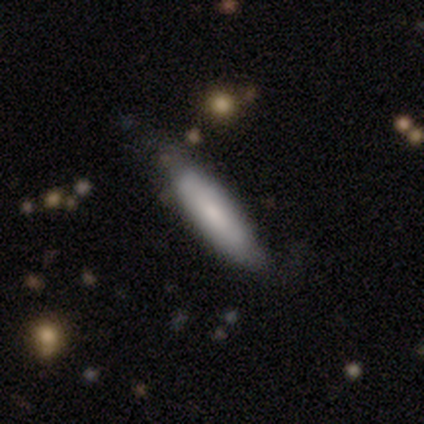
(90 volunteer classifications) Volunteers were most divided on "merging": none: 67%, minor disturbance: 26%, major disturbance: 4%, merger: 2%. More confident: how rounded — cigar-shaped (84%); smooth or featured — smooth (77%).